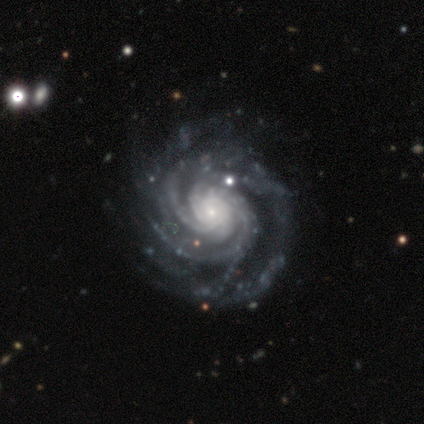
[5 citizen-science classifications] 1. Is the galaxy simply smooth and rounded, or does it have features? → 100% featured or disk, 0% smooth, 0% star or artifact.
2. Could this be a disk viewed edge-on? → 100% no, 0% yes.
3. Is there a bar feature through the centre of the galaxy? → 80% no, 20% weak, 0% strong.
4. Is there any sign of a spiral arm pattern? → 100% yes, 0% no.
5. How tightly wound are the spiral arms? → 100% tight, 0% medium, 0% loose.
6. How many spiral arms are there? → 60% more than 4, 20% 3, 20% 4, 0% 1, 0% 2, 0% can't tell.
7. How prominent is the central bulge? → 60% small, 40% moderate, 0% dominant, 0% large, 0% none.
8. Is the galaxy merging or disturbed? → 60% none, 40% major disturbance, 0% minor disturbance, 0% merger.